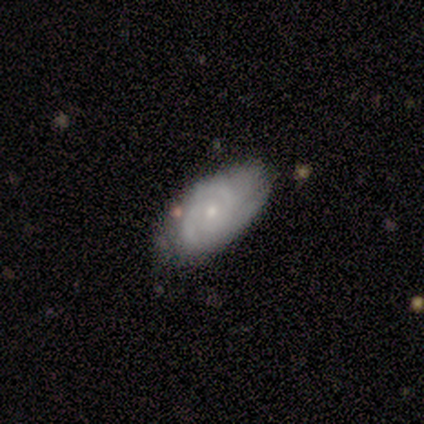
This is clearly a featured or disk galaxy (85%). It is clearly not viewed edge-on (100%). Bar: clearly no (88%). Spiral arm pattern: clearly yes (88%). Spiral arm count: likely 2 (70%). Spiral winding: likely tight (77%). Central bulge: likely small (68%). Merging: possibly none (51%).